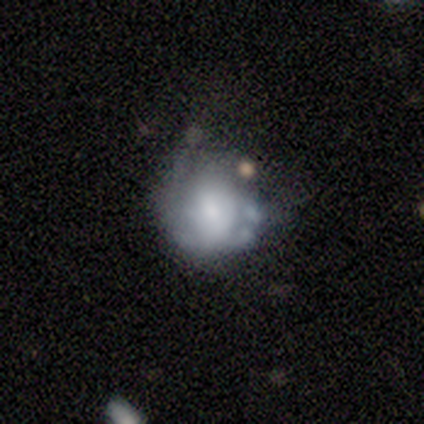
Morphology: type=smooth (40%, tied with featured or disk); roundness=round (50%, tied with in between); merging=minor disturbance (50%).